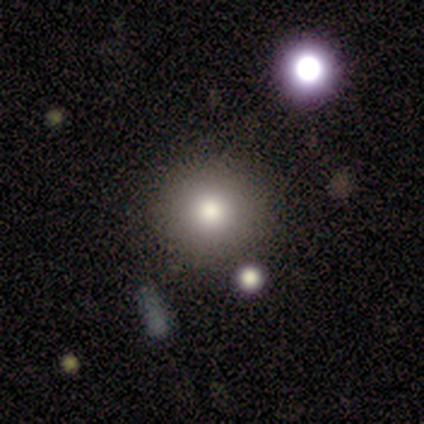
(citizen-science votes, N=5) A smooth galaxy with no disk features (60%) that is round (100%).

Vote fractions:
- Smooth or featured? smooth: 60% / star or artifact: 40% / featured or disk: 0%
- How rounded? round: 100% / in between: 0% / cigar-shaped: 0%
- Merging? none: 100% / minor disturbance: 0% / major disturbance: 0% / merger: 0%